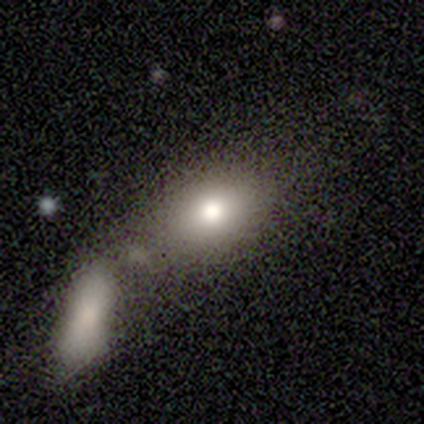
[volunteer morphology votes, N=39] Smooth or featured? 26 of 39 (67%) said smooth. How rounded? 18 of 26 (69%) said in between. Merging? 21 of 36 (58%) said merger.